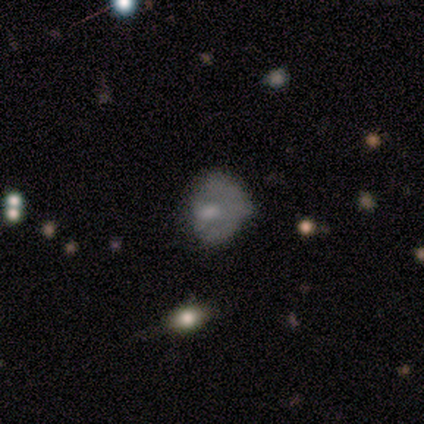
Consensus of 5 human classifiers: Smooth or featured? 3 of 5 (60%) said smooth. How rounded? 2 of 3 (67%) said in between. Merging? 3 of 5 (60%) said none.